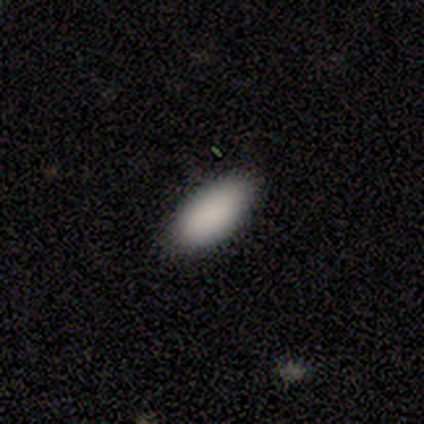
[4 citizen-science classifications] smooth 100%, featured or disk 0%, star or artifact 0%. Down the decision tree: how rounded — in between (100%); merging — none (100%).